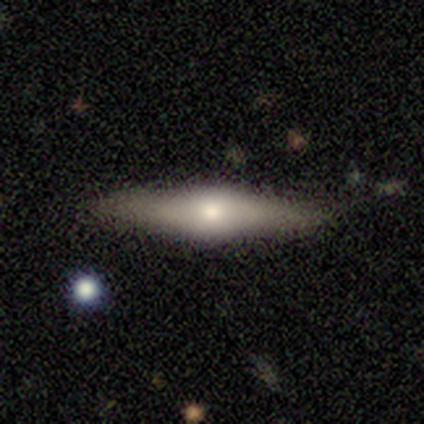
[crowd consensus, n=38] smooth-or-featured: smooth: 50% | featured or disk: 47% | star or artifact: 3%
  how-rounded: cigar-shaped: 68% | in between: 26% | round: 5%
  merging: none: 81% | minor disturbance: 16% | merger: 3% | major disturbance: 0%